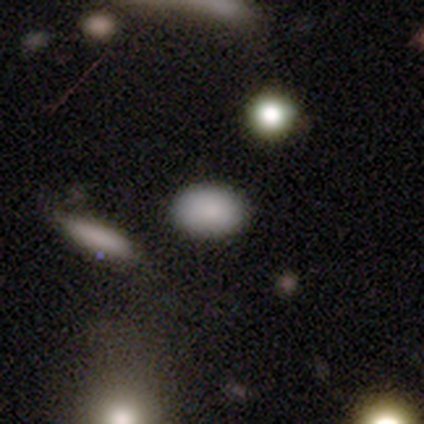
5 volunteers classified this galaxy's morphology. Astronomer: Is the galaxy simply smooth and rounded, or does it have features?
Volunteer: smooth — 100%.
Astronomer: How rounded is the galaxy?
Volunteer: in between — 80%.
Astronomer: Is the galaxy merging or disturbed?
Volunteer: none — 60%.